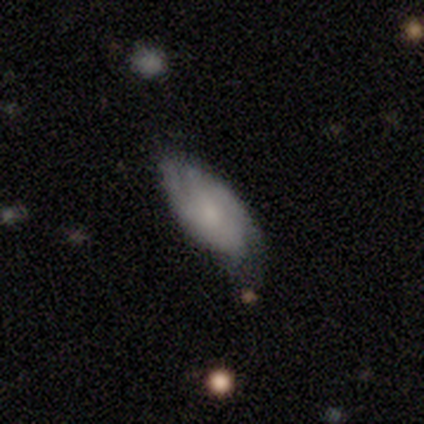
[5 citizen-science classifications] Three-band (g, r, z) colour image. It shows a smooth galaxy with no disk features (80%) that is in between round and cigar-shaped (100%). Merging: none (40%, tied with minor disturbance).